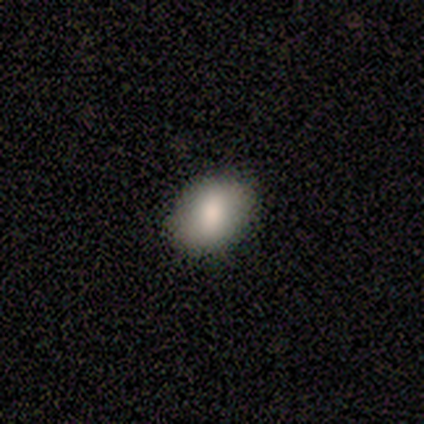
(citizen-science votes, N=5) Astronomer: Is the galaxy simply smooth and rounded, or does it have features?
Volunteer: smooth — 80%.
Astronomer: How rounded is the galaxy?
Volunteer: in between — 50%.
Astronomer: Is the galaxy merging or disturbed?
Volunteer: none — 80%.